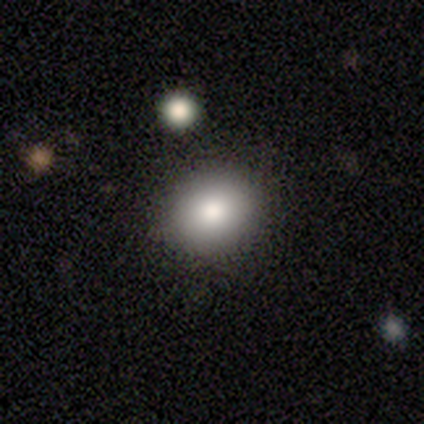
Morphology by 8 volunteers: Smooth or featured? smooth (88%)
How rounded? in between (86%)
Merging? none (62%)